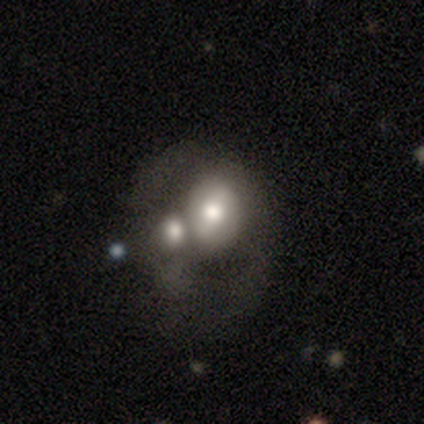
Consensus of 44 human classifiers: Q: Smooth or featured?
A: featured or disk (52%); runner-up: smooth (39%)
Q: Edge-on disk?
A: no (96%); runner-up: yes (4%)
Q: Bar?
A: no (59%); runner-up: weak (32%)
Q: Spiral arms?
A: no (95%); runner-up: yes (5%)
Q: Bulge size?
A: moderate (45%); runner-up: large (27%)
Q: Merging?
A: merger (55%); runner-up: major disturbance (20%)